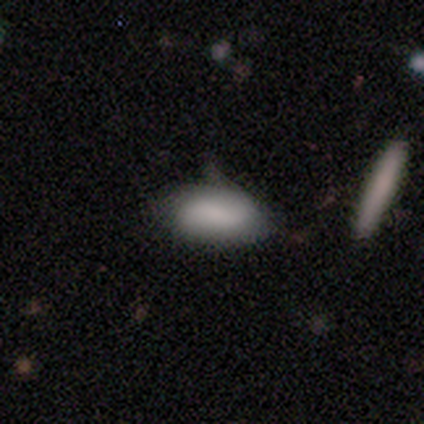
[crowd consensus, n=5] This is clearly a smooth galaxy (80%). How rounded: clearly in between (100%). Merging: likely minor disturbance (60%).